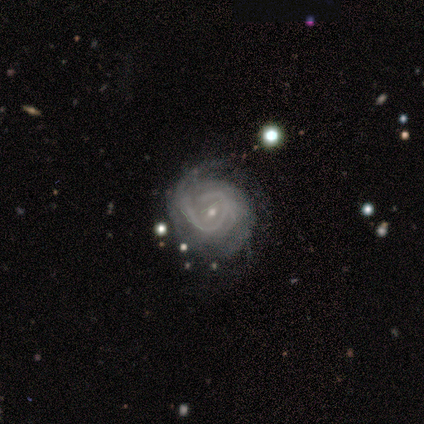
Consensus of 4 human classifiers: Smooth or featured? 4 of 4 (100%) said featured or disk. Edge-on disk? 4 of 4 (100%) said no. Bar? 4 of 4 (100%) said no. Spiral arms? 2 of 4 (50%, tied with no) said yes. Spiral winding? 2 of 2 (100%) said tight. Spiral arm count? 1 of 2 (50%, tied with 3) said 2. Bulge size? 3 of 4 (75%) said small. Merging? 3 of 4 (75%) said none.